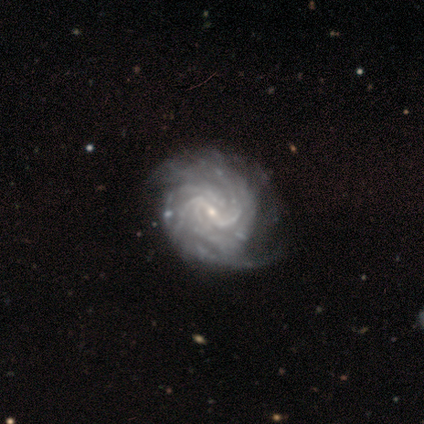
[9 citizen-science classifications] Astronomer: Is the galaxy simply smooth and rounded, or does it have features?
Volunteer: featured or disk — 100%.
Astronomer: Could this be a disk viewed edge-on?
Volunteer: no — 100%.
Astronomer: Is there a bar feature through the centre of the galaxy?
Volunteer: strong — 33%, tied with weak and no at 33%.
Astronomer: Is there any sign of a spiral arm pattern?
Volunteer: yes — 100%.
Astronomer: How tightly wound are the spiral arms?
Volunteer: tight — 56% (runner-up: medium, 44%).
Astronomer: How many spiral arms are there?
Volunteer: can't tell — 56%.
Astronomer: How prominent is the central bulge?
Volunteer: small — 100%.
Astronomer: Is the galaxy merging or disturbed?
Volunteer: none — 78%.